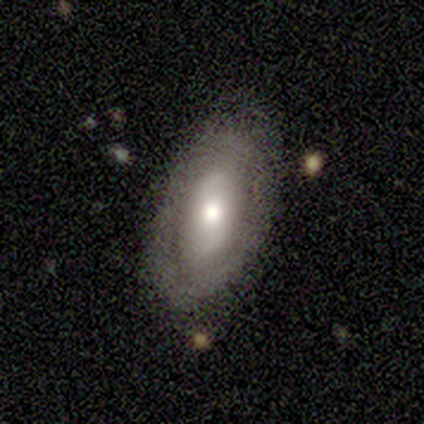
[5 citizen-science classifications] Morphology: type=featured or disk (60%); edge-on=no (100%); bar=no (67%); spiral arms=yes (67%); winding=tight (50%, tied with medium); arm count=2 (100%); bulge=moderate (100%); merging=none (100%).